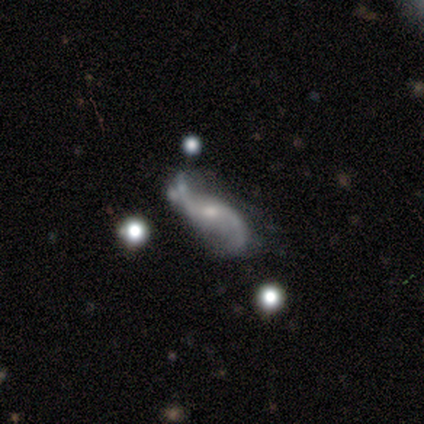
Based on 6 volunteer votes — Morphology: type=featured or disk (100%); edge-on=no (100%); bar=no (67%); spiral arms=yes (83%); winding=loose (80%); arm count=2 (100%); bulge=moderate (50%); merging=none (67%).